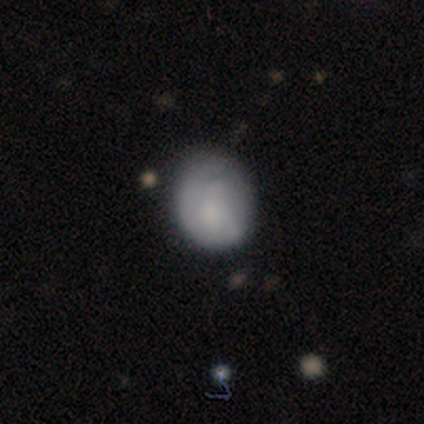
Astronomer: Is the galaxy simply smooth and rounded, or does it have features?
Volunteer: smooth — 74%.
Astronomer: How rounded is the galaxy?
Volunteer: round — 62%.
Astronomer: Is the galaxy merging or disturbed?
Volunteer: none — 61%.